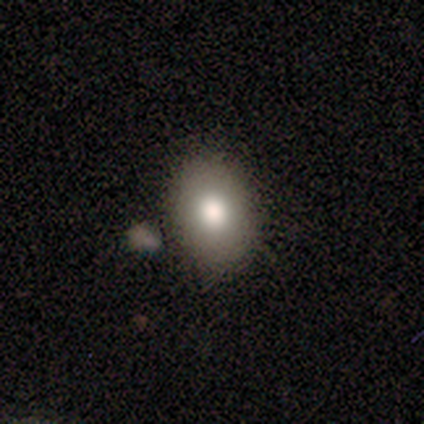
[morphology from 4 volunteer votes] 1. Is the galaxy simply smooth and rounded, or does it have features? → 100% smooth, 0% featured or disk, 0% star or artifact.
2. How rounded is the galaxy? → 100% in between, 0% round, 0% cigar-shaped.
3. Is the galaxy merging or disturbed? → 75% none, 25% merger, 0% minor disturbance, 0% major disturbance.